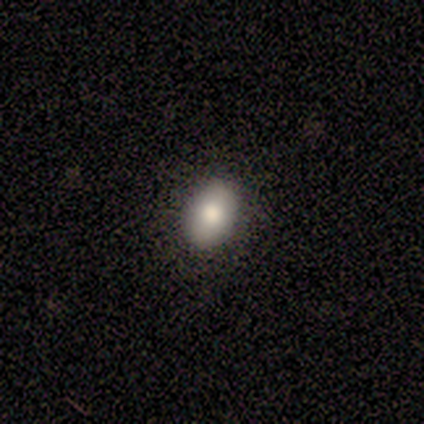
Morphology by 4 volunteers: A smooth galaxy with no disk features (75%) that is in between round and cigar-shaped (67%). Merging: none (100%).